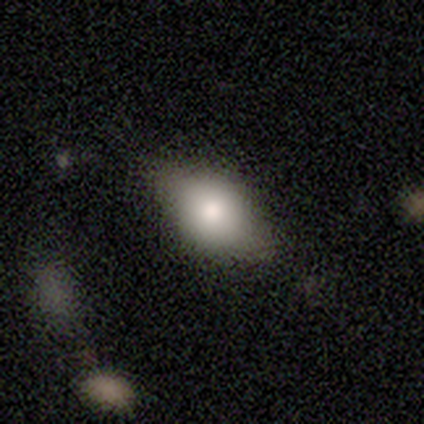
Smooth or featured?
  - smooth: 100% *
  - featured or disk: 0%
  - star or artifact: 0%
How rounded?
  - in between: 100% *
  - round: 0%
  - cigar-shaped: 0%
Merging?
  - none: 100% *
  - minor disturbance: 0%
  - major disturbance: 0%
  - merger: 0%